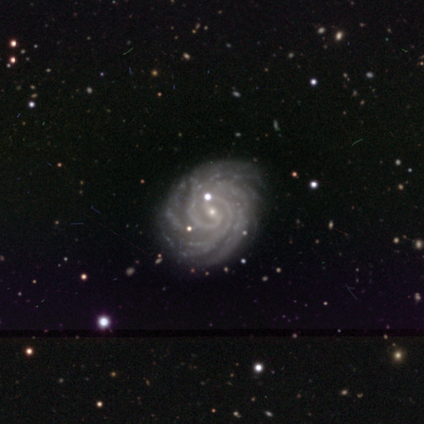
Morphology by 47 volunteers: This appears to be a featured or disk galaxy (96%) with a weak bar (44%), 2 (30%) tight (72%) spiral arms (100%) and a small central bulge (95%). Merging: none (80%).